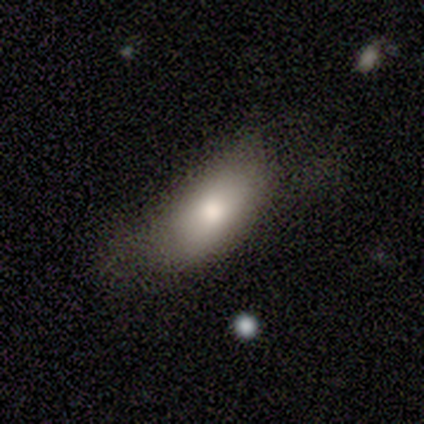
Smooth or featured? smooth (78%)
How rounded? in between (91%)
Merging? minor disturbance (40%)